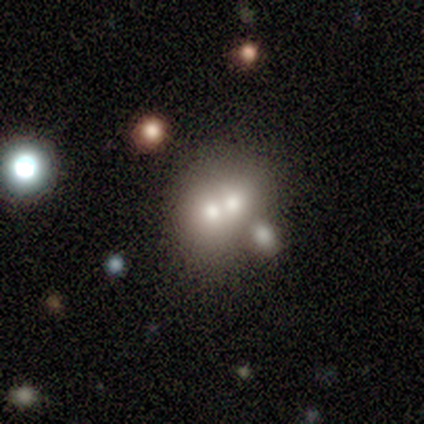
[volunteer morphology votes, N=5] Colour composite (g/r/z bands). It shows a smooth galaxy with no disk features (80%) that is round (50%, tied with in between). Merging: merger (75%).